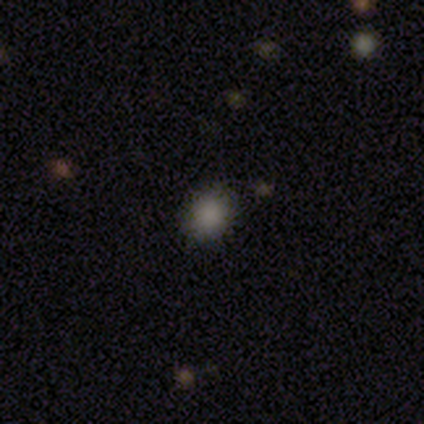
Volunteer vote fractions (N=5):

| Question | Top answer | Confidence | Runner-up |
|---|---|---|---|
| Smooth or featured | smooth | 100% | — |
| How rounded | round | 60% | in between (40%) |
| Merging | none | 80% | merger (20%) |